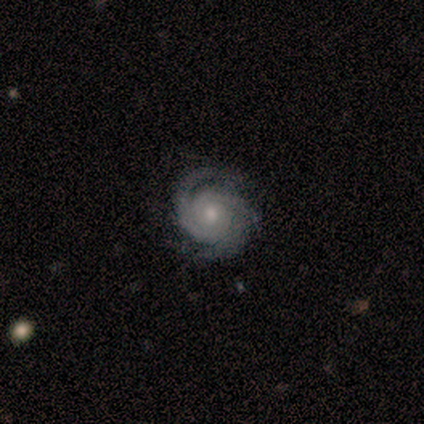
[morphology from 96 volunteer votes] type=featured or disk (93%); edge-on=no (99%); bar=no (91%); spiral arms=yes (98%); winding=tight (78%); arm count=3 (55%); bulge=moderate (66%); merging=none (74%).